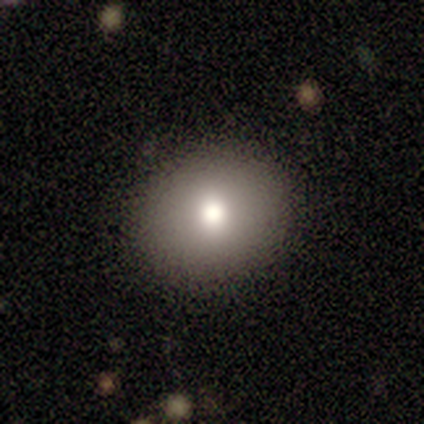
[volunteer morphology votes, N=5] Smooth or featured?
  - smooth: 80% *
  - featured or disk: 20%
  - star or artifact: 0%
How rounded?
  - round: 100% *
  - in between: 0%
  - cigar-shaped: 0%
Merging?
  - none: 100% *
  - minor disturbance: 0%
  - major disturbance: 0%
  - merger: 0%